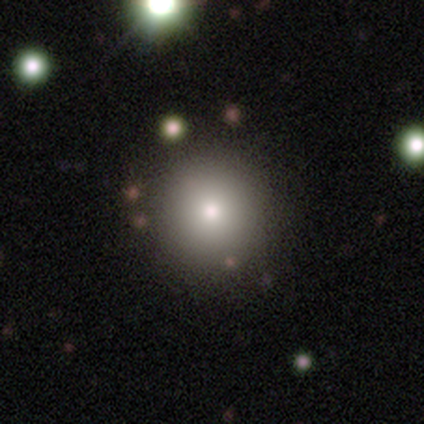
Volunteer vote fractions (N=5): smooth 60%, star or artifact 40%, featured or disk 0%. Down the decision tree: how rounded — round (100%); merging — none (67%).